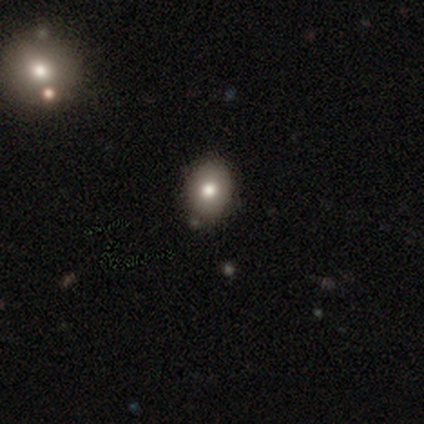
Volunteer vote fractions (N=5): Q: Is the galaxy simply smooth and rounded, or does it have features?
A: smooth — 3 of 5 (60%).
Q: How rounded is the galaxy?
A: in between — 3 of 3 (100%).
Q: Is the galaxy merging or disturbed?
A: none — 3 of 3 (100%).